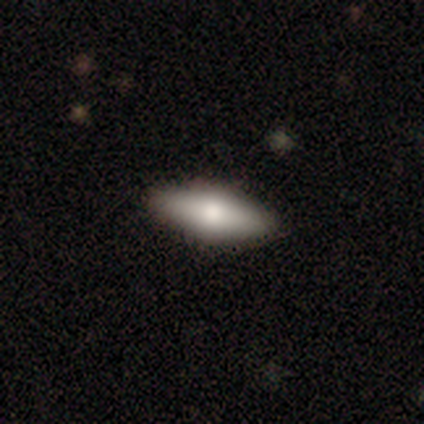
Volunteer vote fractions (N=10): Overall: smooth (60%; featured or disk 40%). How rounded: in between (50%, tied with cigar-shaped). Merging: none (90%).